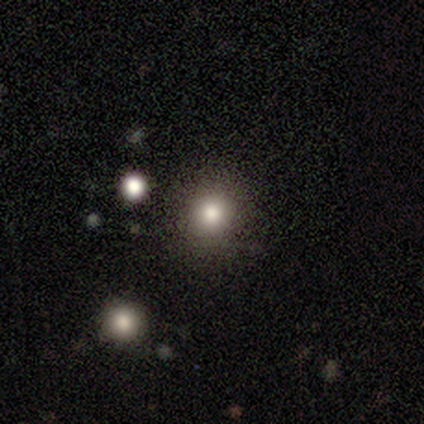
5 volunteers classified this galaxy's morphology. Q: Smooth or featured?
A: smooth (100%)
Q: How rounded?
A: in between (60%); runner-up: round (40%)
Q: Merging?
A: none (100%)